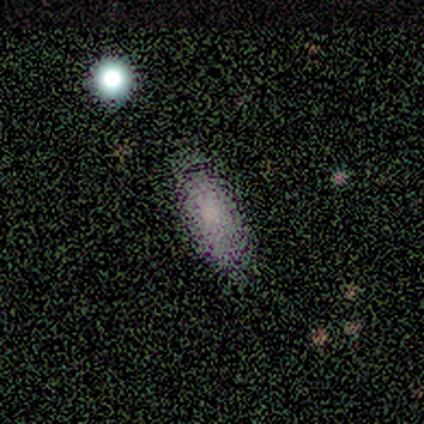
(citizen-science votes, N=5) Smooth or featured? 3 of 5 (60%) said star or artifact.